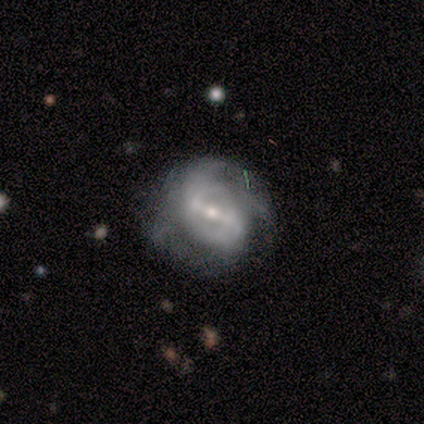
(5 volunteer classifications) Smooth or featured? 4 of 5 (80%) said featured or disk. Edge-on disk? 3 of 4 (75%) said no. Bar? 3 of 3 (100%) said strong. Spiral arms? 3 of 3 (100%) said yes. Spiral winding? 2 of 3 (67%) said tight. Spiral arm count? 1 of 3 (33%, tied with 4 and can't tell) said 3. Bulge size? 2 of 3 (67%) said small. Merging? 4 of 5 (80%) said none.